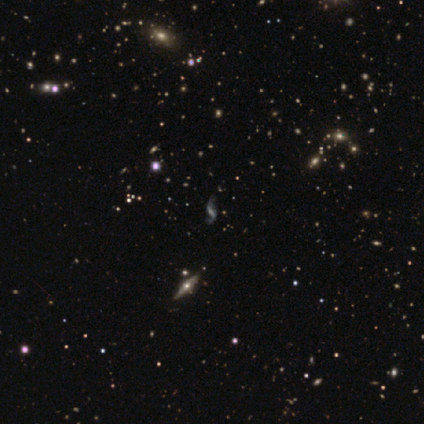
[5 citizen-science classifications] A featured or disk galaxy (80%) with a strong bar (100%), 2 (100%) loose (67%) spiral arms (100%) and a small central bulge (67%). Merging: none (75%).